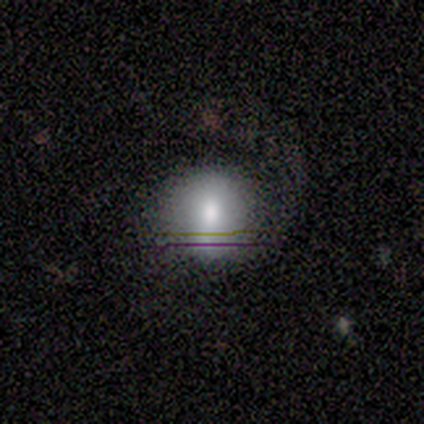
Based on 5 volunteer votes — Volunteers were most divided on "how rounded": round: 75%, in between: 25%, cigar-shaped: 0%. More confident: smooth or featured — smooth (80%); merging — none (80%).